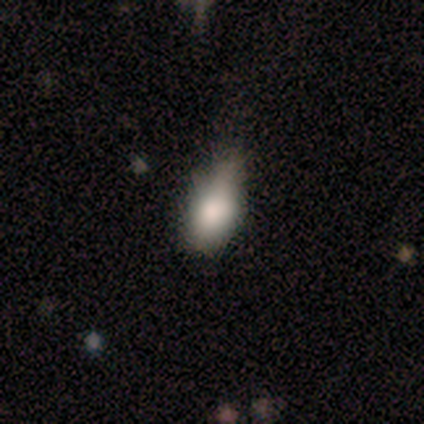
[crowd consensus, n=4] This appears to be a smooth galaxy with no disk features (100%) that is in between round and cigar-shaped (75%). Merging: none (50%, tied with minor disturbance).